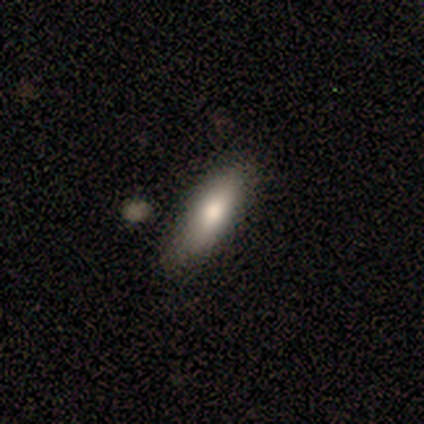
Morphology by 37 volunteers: Smooth or featured? 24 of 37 (65%) said smooth. How rounded? 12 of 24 (50%) said cigar-shaped. Merging? 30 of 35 (86%) said none.